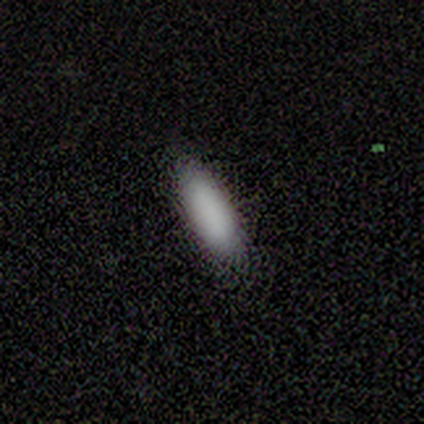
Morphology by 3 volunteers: Smooth or featured? smooth (100%)
How rounded? in between (100%)
Merging? none (67%)